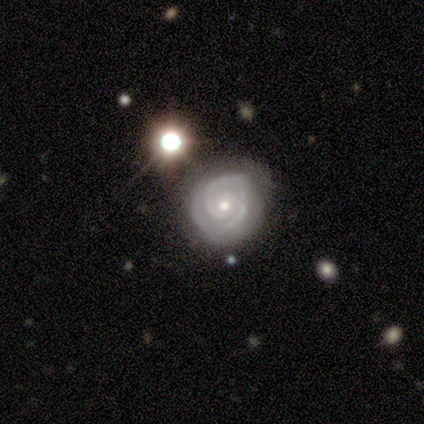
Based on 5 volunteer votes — smooth-or-featured: featured or disk: 100% | smooth: 0% | star or artifact: 0%
  disk-edge-on: no: 100% | yes: 0%
    bar: no: 80% | strong: 20% | weak: 0%
    has-spiral-arms: yes: 100% | no: 0%
      spiral-winding: tight: 100% | medium: 0% | loose: 0%
      spiral-arm-count: 2: 100% | 1: 0% | 3: 0% | 4: 0% | more than 4: 0% | can't tell: 0%
    bulge-size: small: 60% | moderate: 40% | dominant: 0% | large: 0% | none: 0%
  merging: none: 80% | minor disturbance: 20% | major disturbance: 0% | merger: 0%